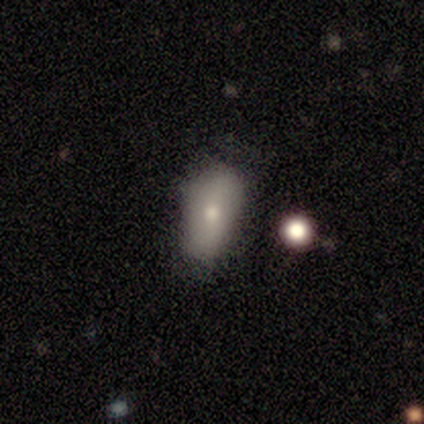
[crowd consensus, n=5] smooth 60%, featured or disk 40%, star or artifact 0%. Down the decision tree: how rounded — in between (100%); merging — none (40%).